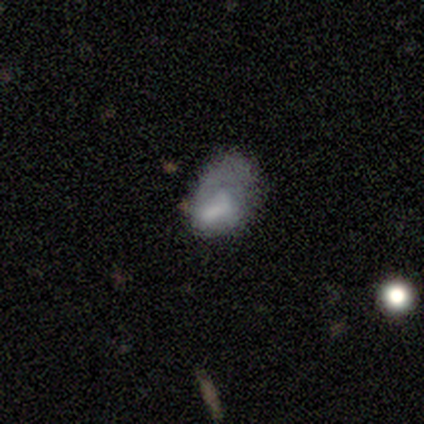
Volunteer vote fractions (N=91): Q: Smooth or featured?
A: smooth (69%); runner-up: featured or disk (22%)
Q: How rounded?
A: in between (90%); runner-up: round (10%)
Q: Merging?
A: major disturbance (45%); runner-up: minor disturbance (30%)